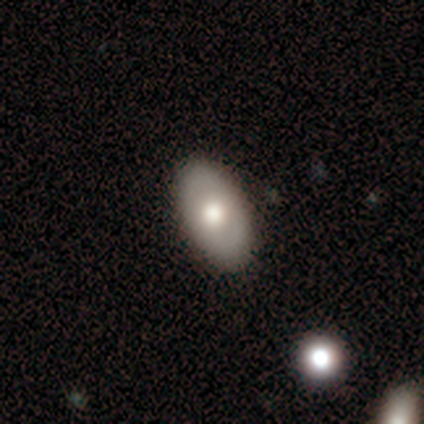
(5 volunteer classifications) This appears to be a featured or disk galaxy (60%) with no bar (100%), no spiral arms (100%) and a moderate central bulge (67%). Merging: none (100%).